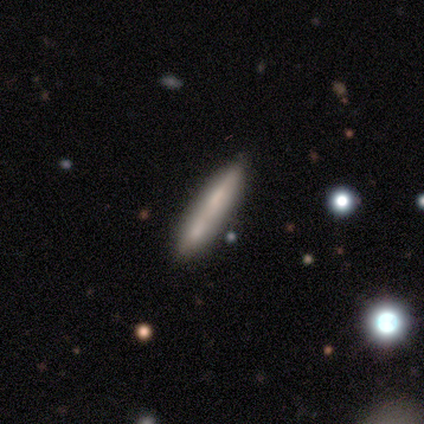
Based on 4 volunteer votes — A smooth galaxy with no disk features (75%) that is cigar-shaped (100%).

Vote fractions:
- Smooth or featured? smooth: 75% / featured or disk: 25% / star or artifact: 0%
- How rounded? cigar-shaped: 100% / round: 0% / in between: 0%
- Merging? none: 50% (tied) / merger: 50% (tied) / minor disturbance: 0% / major disturbance: 0%